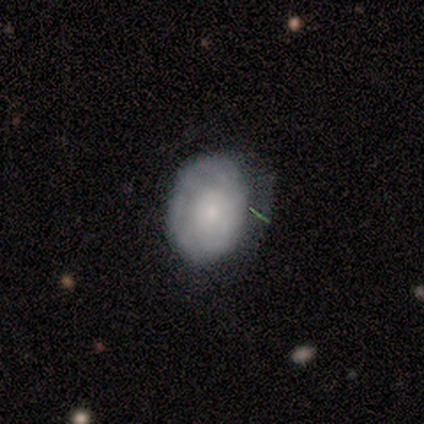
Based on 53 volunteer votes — smooth-or-featured: smooth: 45% (tied) | featured or disk: 45% (tied) | star or artifact: 9%
  how-rounded: in between: 88% | round: 12% | cigar-shaped: 0%
  merging: none: 56% | minor disturbance: 31% | major disturbance: 10% | merger: 2%